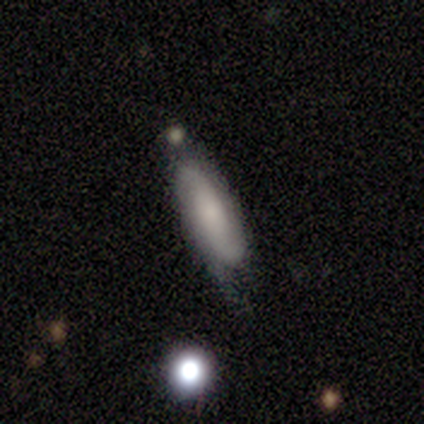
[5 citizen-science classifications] This appears to be a smooth galaxy with no disk features (60%) that is in between round and cigar-shaped (67%). Merging: none (80%).